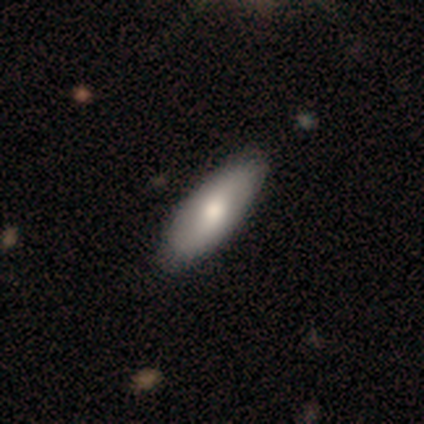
Morphology: type=smooth (69%); roundness=in between (81%); merging=none (92%).